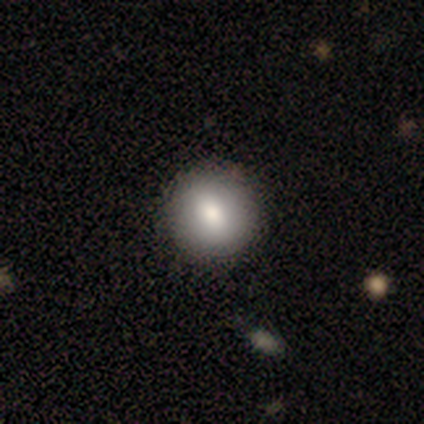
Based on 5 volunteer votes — This is clearly a smooth galaxy (80%). How rounded: likely round (75%). Merging: clearly none (100%).